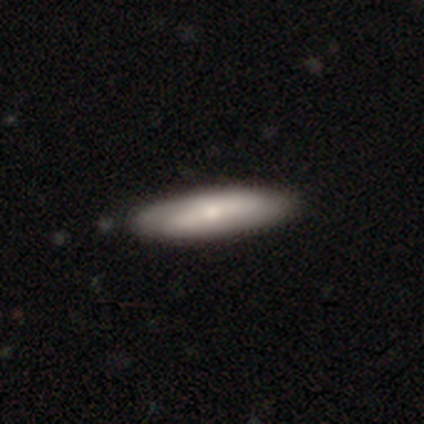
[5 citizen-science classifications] Overall: smooth (40%, tied with featured or disk). How rounded: cigar-shaped (100%). Merging: none (100%).